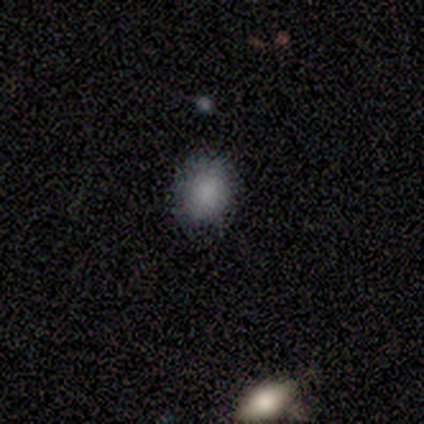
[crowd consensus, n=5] Morphology: type=smooth (40%, tied with star or artifact); roundness=round (100%); merging=none (67%).